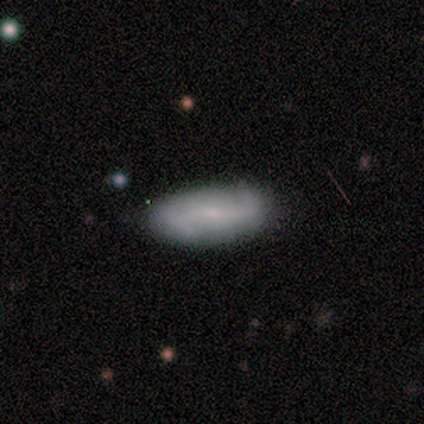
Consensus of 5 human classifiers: Smooth or featured? 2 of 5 (40%, tied with featured or disk) said smooth. How rounded? 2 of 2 (100%) said in between. Merging? 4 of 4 (100%) said none.